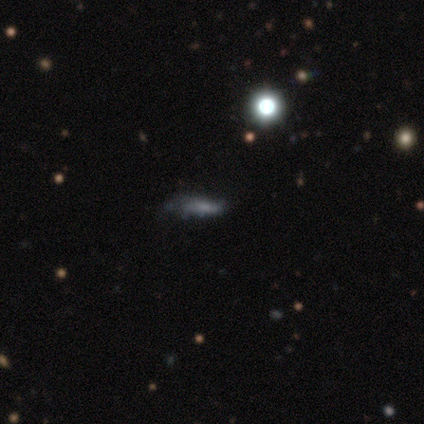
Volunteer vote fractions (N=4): This is possibly a star or artifact rather than a galaxy (50%).